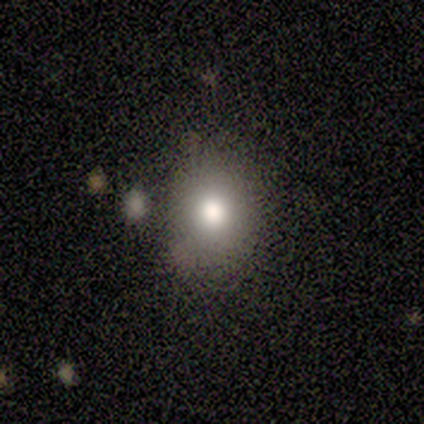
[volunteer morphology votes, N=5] Q: Smooth or featured?
A: smooth (80%); runner-up: featured or disk (20%)
Q: How rounded?
A: in between (75%); runner-up: round (25%)
Q: Merging?
A: none (60%); runner-up: minor disturbance (20%)